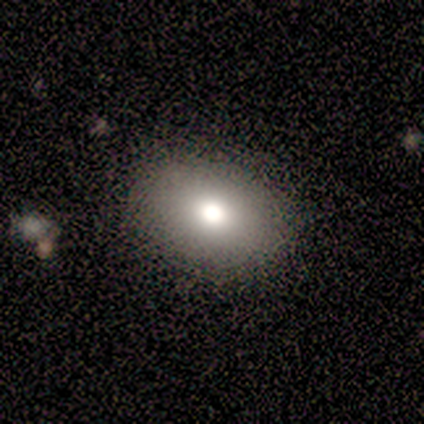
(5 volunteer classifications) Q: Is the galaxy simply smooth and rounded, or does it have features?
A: smooth — 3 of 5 (60%).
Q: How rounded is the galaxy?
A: in between — 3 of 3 (100%).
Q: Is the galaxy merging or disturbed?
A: none — 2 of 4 (50%, tied with minor disturbance).